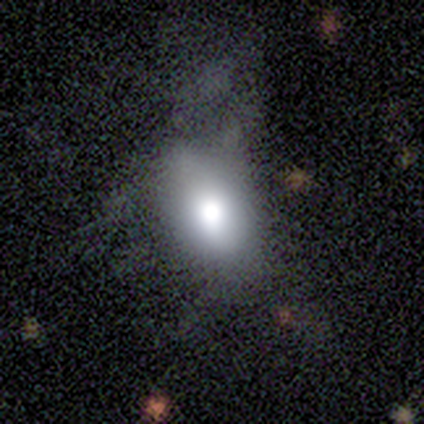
smooth-or-featured: smooth: 80% | featured or disk: 20% | star or artifact: 0%
  how-rounded: in between: 75% | round: 25% | cigar-shaped: 0%
  merging: minor disturbance: 80% | none: 20% | major disturbance: 0% | merger: 0%